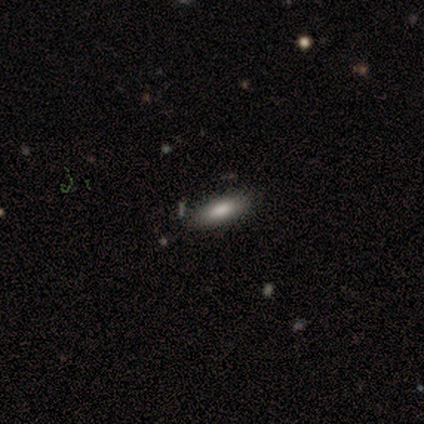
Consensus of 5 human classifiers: Volunteers were most divided on "how rounded": in between: 75%, cigar-shaped: 25%, round: 0%. More confident: merging — none (100%); smooth or featured — smooth (80%).